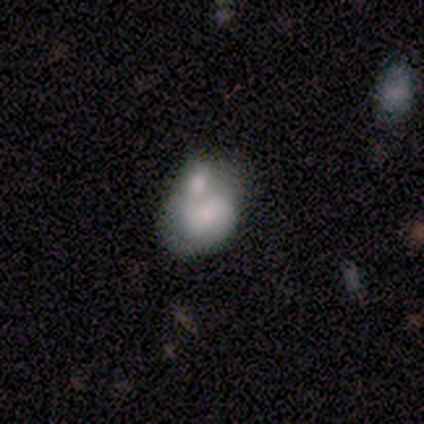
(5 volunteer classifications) Volunteers were most divided on "merging": merger: 60%, none: 20%, major disturbance: 20%, minor disturbance: 0%. More confident: smooth or featured — smooth (100%); how rounded — in between (80%).